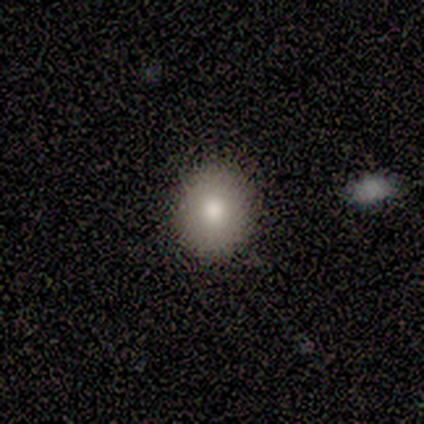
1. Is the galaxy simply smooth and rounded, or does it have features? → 88% smooth, 12% star or artifact, 0% featured or disk.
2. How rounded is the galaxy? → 86% round, 14% in between, 0% cigar-shaped.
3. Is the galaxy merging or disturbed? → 100% none, 0% minor disturbance, 0% major disturbance, 0% merger.